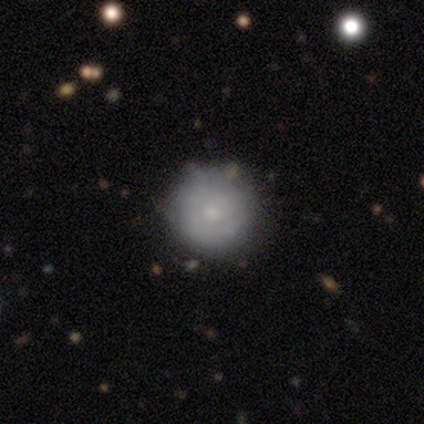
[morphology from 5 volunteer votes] smooth-or-featured: smooth: 80% | featured or disk: 20% | star or artifact: 0%
  how-rounded: round: 100% | in between: 0% | cigar-shaped: 0%
  merging: none: 100% | minor disturbance: 0% | major disturbance: 0% | merger: 0%